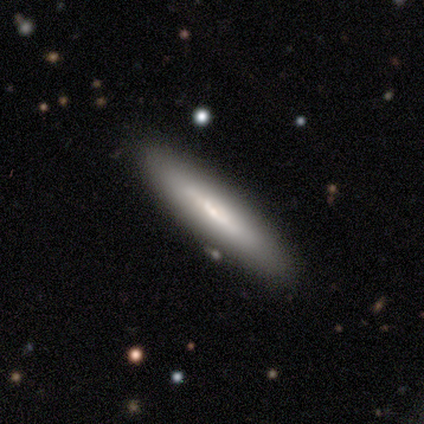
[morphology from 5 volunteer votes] Overall: smooth (60%; featured or disk 40%). How rounded: cigar-shaped (100%). Merging: none (100%).